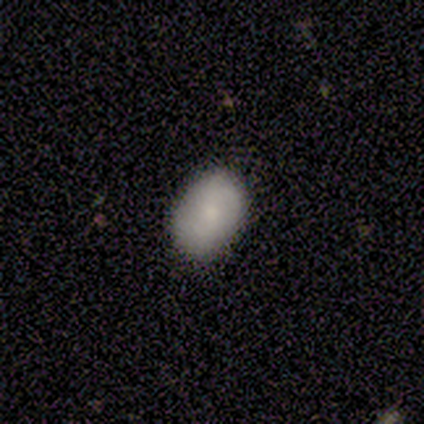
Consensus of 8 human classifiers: This appears to be a smooth galaxy with no disk features (75%) that is in between round and cigar-shaped (67%). Merging: none (75%).